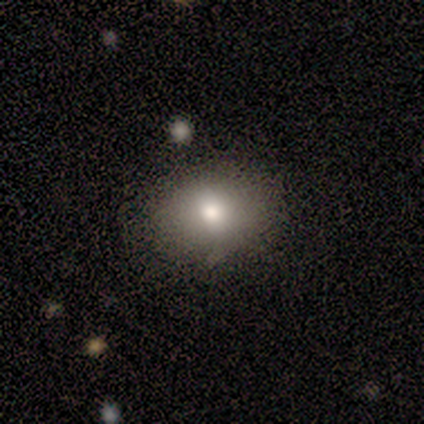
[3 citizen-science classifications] This appears to be a smooth galaxy with no disk features (100%) that is in between round and cigar-shaped (100%). Merging: none (100%).